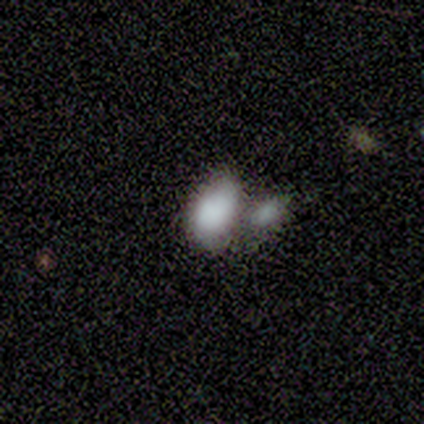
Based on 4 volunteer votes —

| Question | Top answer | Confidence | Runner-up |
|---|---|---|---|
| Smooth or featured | smooth | 50% | featured or disk (25%) |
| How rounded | in between | 100% | — |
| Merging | merger | 67% | none (33%) |